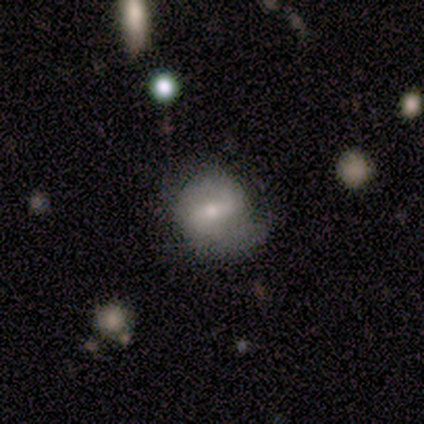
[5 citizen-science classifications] Smooth or featured? 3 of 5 (60%) said featured or disk. Edge-on disk? 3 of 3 (100%) said no. Bar? 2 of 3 (67%) said weak. Spiral arms? 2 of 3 (67%) said yes. Spiral winding? 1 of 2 (50%, tied with loose) said medium. Spiral arm count? 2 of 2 (100%) said 2. Bulge size? 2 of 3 (67%) said small. Merging? 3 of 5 (60%) said none.